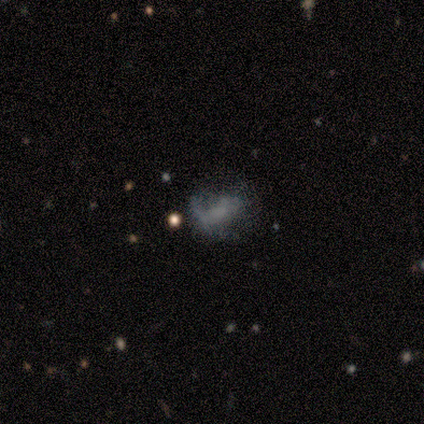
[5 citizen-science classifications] This is likely a smooth galaxy (60%). How rounded: clearly in between (100%). Merging: possibly minor disturbance (50%, tied with major disturbance).